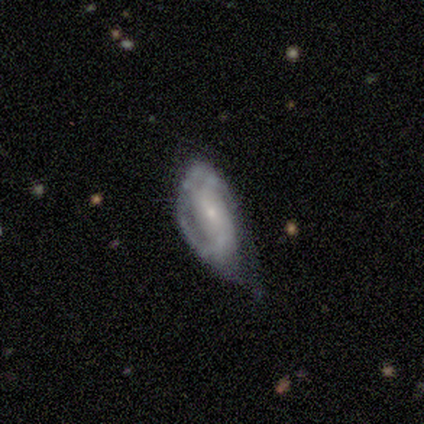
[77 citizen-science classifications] smooth-or-featured: featured or disk: 74% | smooth: 21% | star or artifact: 5%
  disk-edge-on: no: 93% | yes: 7%
    bar: weak: 42% (tied) | no: 42% (tied) | strong: 17%
    has-spiral-arms: yes: 83% | no: 17%
      spiral-winding: medium: 45% | tight: 41% | loose: 14%
      spiral-arm-count: 2: 70% | can't tell: 14% | 1: 9% | 3: 5% | 4: 2% | more than 4: 0%
    bulge-size: small: 77% | moderate: 19% | large: 2% | none: 2% | dominant: 0%
  merging: minor disturbance: 55% | major disturbance: 27% | none: 18% | merger: 0%